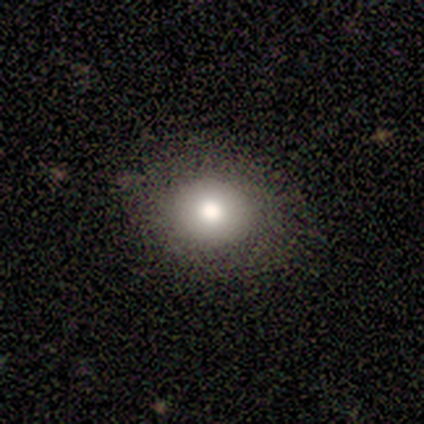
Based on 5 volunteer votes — This is clearly a smooth galaxy (100%). How rounded: clearly round (80%). Merging: clearly none (100%).